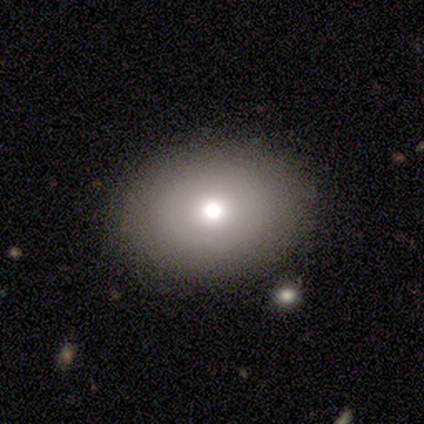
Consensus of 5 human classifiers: smooth-or-featured: smooth: 100% | featured or disk: 0% | star or artifact: 0%
  how-rounded: in between: 80% | round: 20% | cigar-shaped: 0%
  merging: none: 100% | minor disturbance: 0% | major disturbance: 0% | merger: 0%